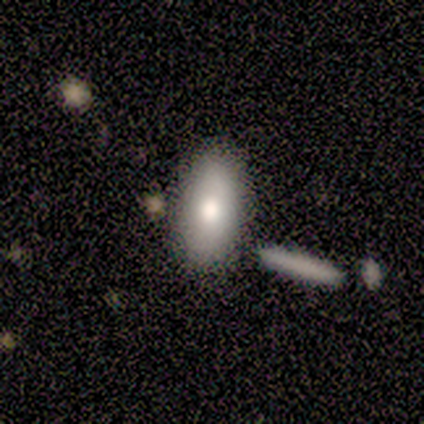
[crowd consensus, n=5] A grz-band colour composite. It shows a smooth galaxy with no disk features (100%) that is in between round and cigar-shaped (100%). Merging: none (80%).